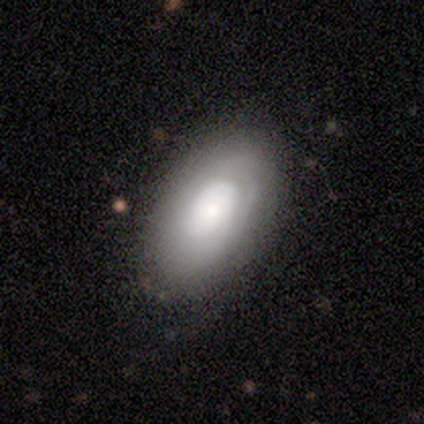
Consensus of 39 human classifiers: Morphology: type=smooth (49%, tied with featured or disk); roundness=in between (79%); merging=none (61%).